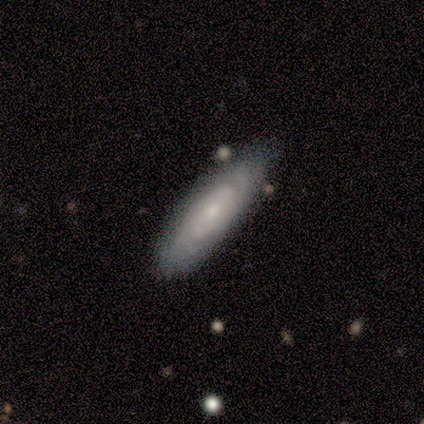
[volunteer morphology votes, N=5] smooth 80%, featured or disk 20%, star or artifact 0%. Down the decision tree: how rounded — in between (50%, tied with cigar-shaped); merging — none (80%).